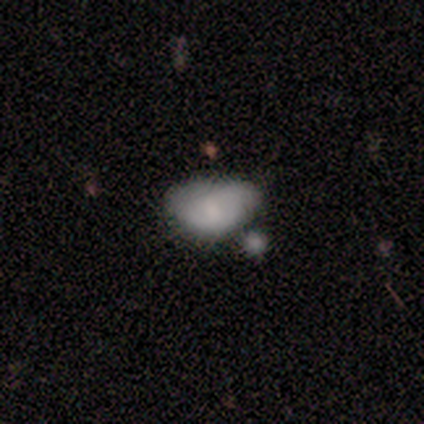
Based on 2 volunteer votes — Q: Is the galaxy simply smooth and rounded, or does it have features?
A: smooth — 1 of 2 (50%, tied with featured or disk).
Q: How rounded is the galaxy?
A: in between — 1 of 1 (100%).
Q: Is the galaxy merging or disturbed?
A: merger — 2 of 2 (100%).